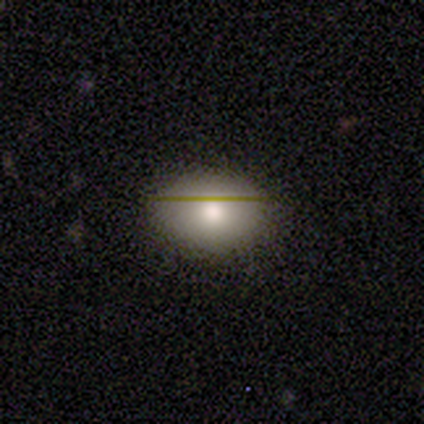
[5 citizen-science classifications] smooth_or_featured: smooth (p=0.80) [alt: star or artifact p=0.20]
how_rounded: in between (p=0.75) [alt: round p=0.25]
merging: none (p=1.00)